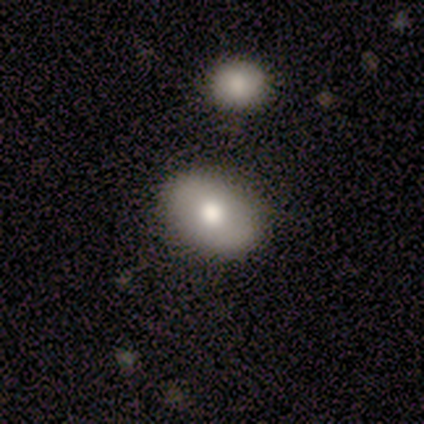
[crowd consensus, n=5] This is clearly a smooth galaxy (100%). How rounded: clearly in between (80%). Merging: clearly none (100%).